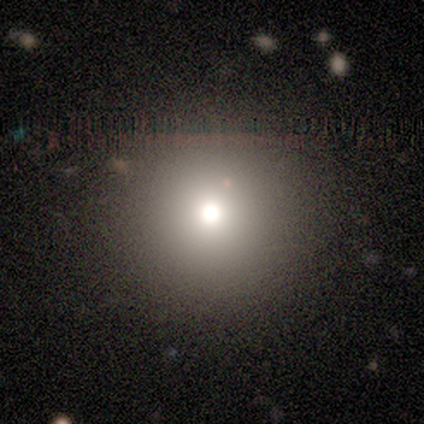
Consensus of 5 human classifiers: Overall: smooth (40%, tied with star or artifact). How rounded: round (100%). Merging: none (100%).